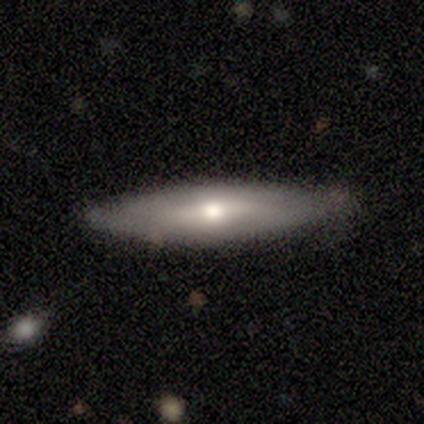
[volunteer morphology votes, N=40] Overall: smooth (50%; featured or disk 48%). How rounded: cigar-shaped (85%). Merging: none (64%).